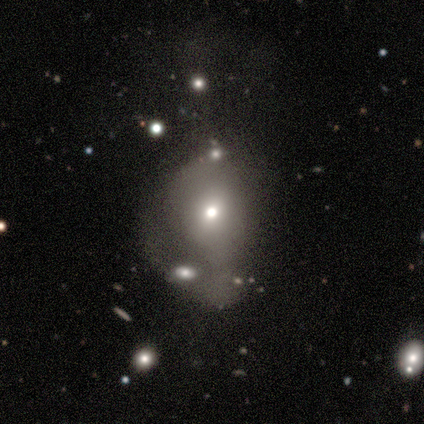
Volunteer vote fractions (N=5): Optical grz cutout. It shows a smooth galaxy with no disk features (60%) that is in between round and cigar-shaped (67%). Merging: minor disturbance (60%).